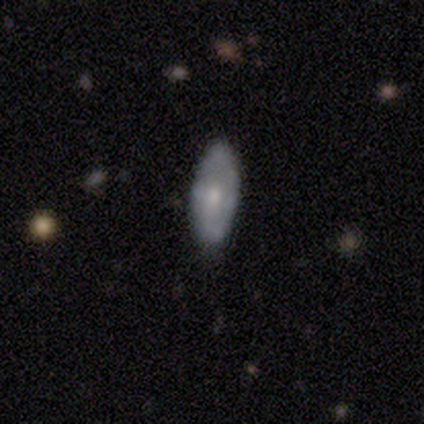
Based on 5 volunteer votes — smooth 60%, featured or disk 40%, star or artifact 0%. Down the decision tree: how rounded — in between (100%); merging — minor disturbance (60%).